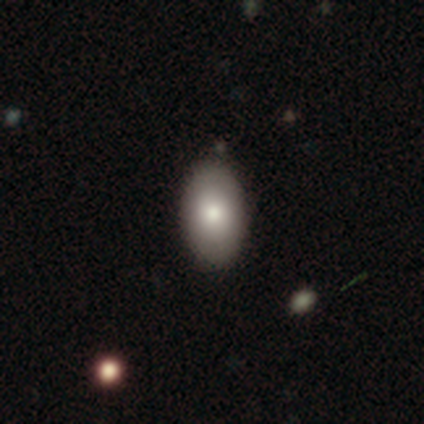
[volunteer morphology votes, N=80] This is clearly a smooth galaxy (86%). How rounded: clearly in between (91%). Merging: marginally none (40%).